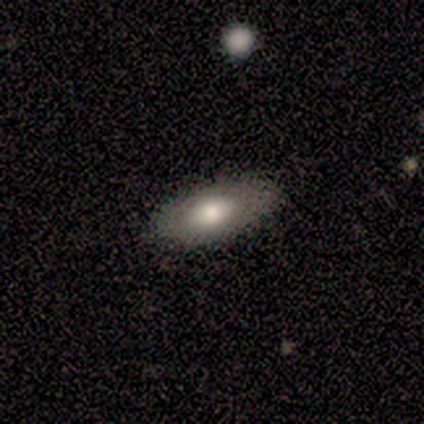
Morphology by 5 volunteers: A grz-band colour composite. It shows a smooth galaxy with no disk features (40%, tied with featured or disk) that is in between round and cigar-shaped (100%). Merging: none (100%).